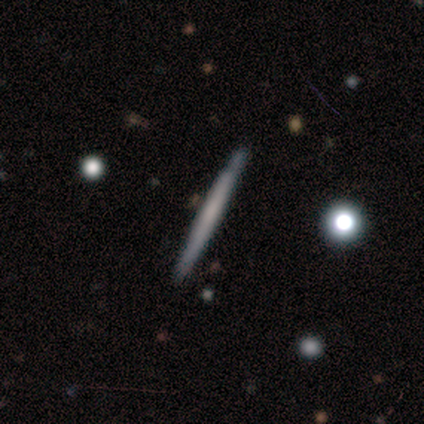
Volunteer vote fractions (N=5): Smooth or featured?
  - featured or disk: 80% *
  - smooth: 20%
  - star or artifact: 0%
Edge-on disk?
  - yes: 100% *
  - no: 0%
Edge-on bulge?
  - none: 100% *
  - boxy: 0%
  - rounded: 0%
Merging?
  - none: 100% *
  - minor disturbance: 0%
  - major disturbance: 0%
  - merger: 0%